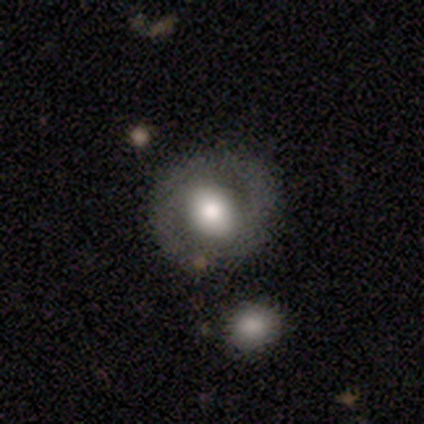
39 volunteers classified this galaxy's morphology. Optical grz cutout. It shows a smooth galaxy with no disk features (49%) that is round (100%). Merging: none (81%).